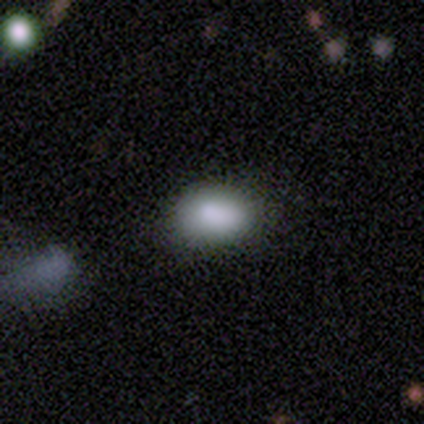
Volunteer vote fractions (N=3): Smooth or featured? 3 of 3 (100%) said smooth. How rounded? 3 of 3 (100%) said in between. Merging? 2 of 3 (67%) said none.